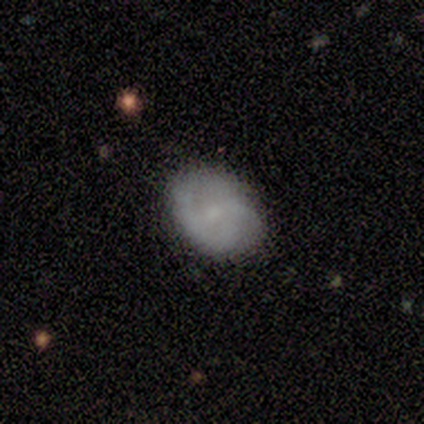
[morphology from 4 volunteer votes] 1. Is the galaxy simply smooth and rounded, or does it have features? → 75% smooth, 25% featured or disk, 0% star or artifact.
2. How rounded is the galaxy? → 67% round, 33% in between, 0% cigar-shaped.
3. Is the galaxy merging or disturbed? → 75% none, 25% minor disturbance, 0% major disturbance, 0% merger.